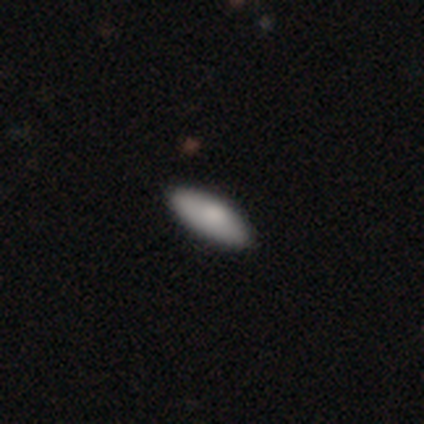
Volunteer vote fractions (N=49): smooth 73%, featured or disk 22%, star or artifact 4%. Down the decision tree: how rounded — in between (83%); merging — none (91%).